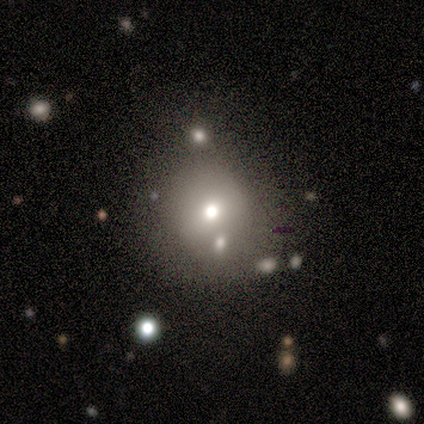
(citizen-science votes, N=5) smooth-or-featured: smooth: 60% | featured or disk: 20% | star or artifact: 20%
  how-rounded: round: 67% | in between: 33% | cigar-shaped: 0%
  merging: none: 100% | minor disturbance: 0% | major disturbance: 0% | merger: 0%